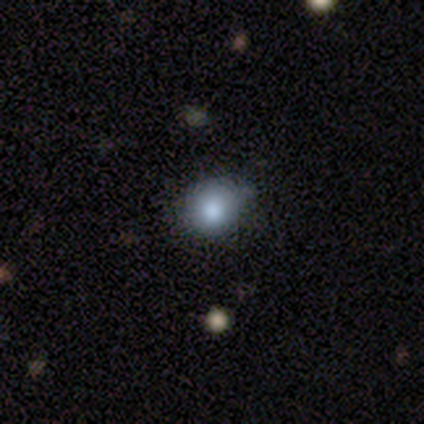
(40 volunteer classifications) A smooth galaxy with no disk features (70%) that is round (79%).

Vote fractions:
- Smooth or featured? smooth: 70% / star or artifact: 25% / featured or disk: 5%
- How rounded? round: 79% / in between: 21% / cigar-shaped: 0%
- Merging? none: 37% / minor disturbance: 23% / major disturbance: 7% / merger: 3%